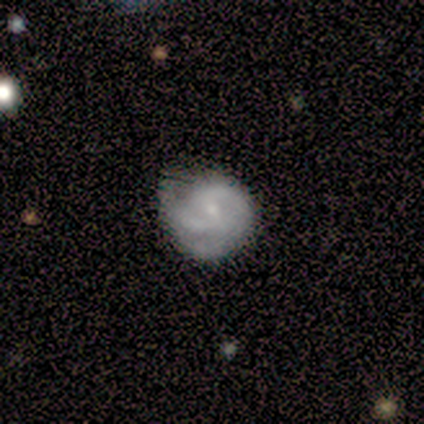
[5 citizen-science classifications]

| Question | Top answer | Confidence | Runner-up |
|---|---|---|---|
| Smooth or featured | featured or disk | 60% | smooth (40%) |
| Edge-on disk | no | 100% | — |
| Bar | weak | 67% | no (33%) |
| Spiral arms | yes | 67% | no (33%) |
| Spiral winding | tight | 50% | tied: medium (50%) |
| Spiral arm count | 2 | 100% | — |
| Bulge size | small | 100% | — |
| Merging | none | 80% | minor disturbance (20%) |